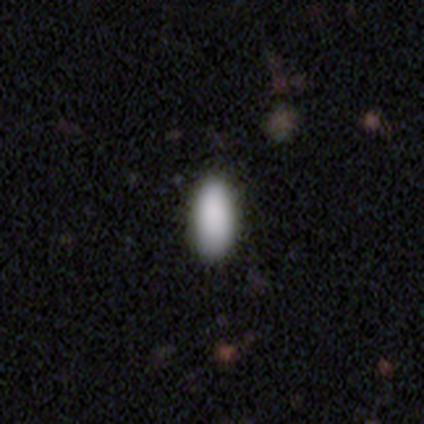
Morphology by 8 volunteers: This appears to be a smooth galaxy with no disk features (88%) that is in between round and cigar-shaped (100%). Merging: none (86%).